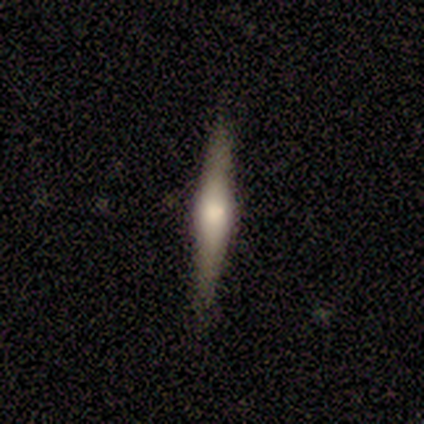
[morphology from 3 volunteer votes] A smooth galaxy with no disk features (100%) that is cigar-shaped (67%).

Vote fractions:
- Smooth or featured? smooth: 100% / featured or disk: 0% / star or artifact: 0%
- How rounded? cigar-shaped: 67% / in between: 33% / round: 0%
- Merging? none: 67% / merger: 33% / minor disturbance: 0% / major disturbance: 0%